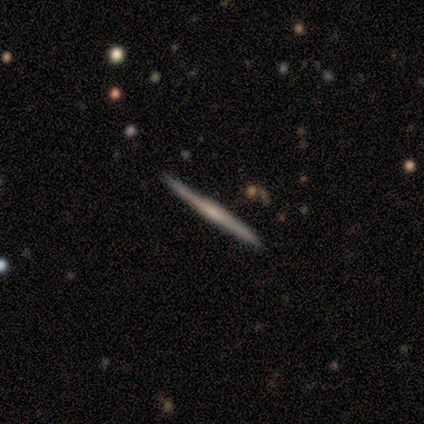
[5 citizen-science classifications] Morphology: type=featured or disk (80%); edge-on=yes (100%); edge-on bulge=none (75%); merging=none (100%).